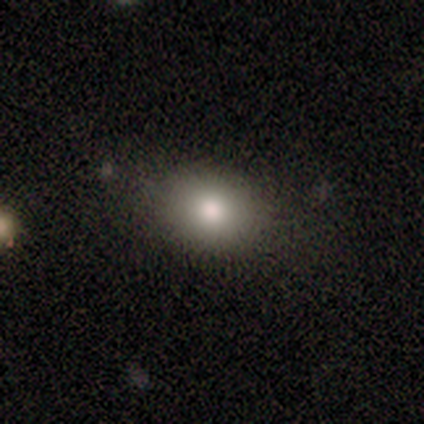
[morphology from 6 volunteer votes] Overall: smooth (50%; featured or disk 33%). How rounded: in between (67%; round 33%). Merging: none (80%).